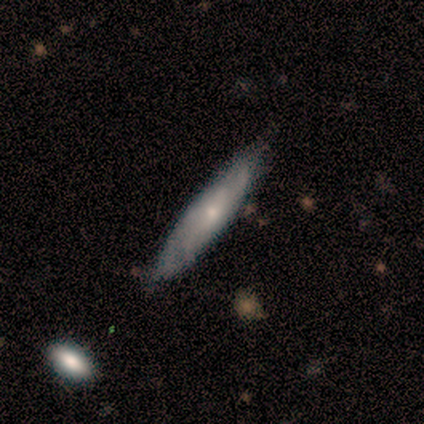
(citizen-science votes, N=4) Overall: smooth (75%). How rounded: cigar-shaped (100%). Merging: none (75%).